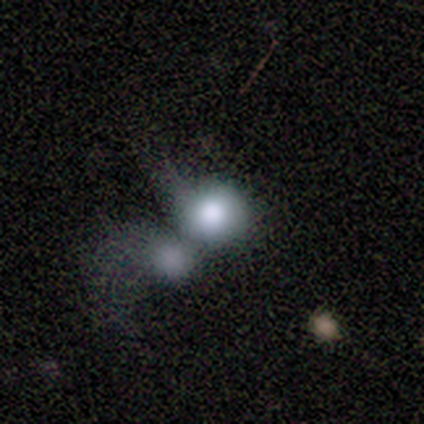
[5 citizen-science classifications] Smooth or featured? 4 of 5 (80%) said smooth. How rounded? 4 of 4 (100%) said round. Merging? 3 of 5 (60%) said merger.